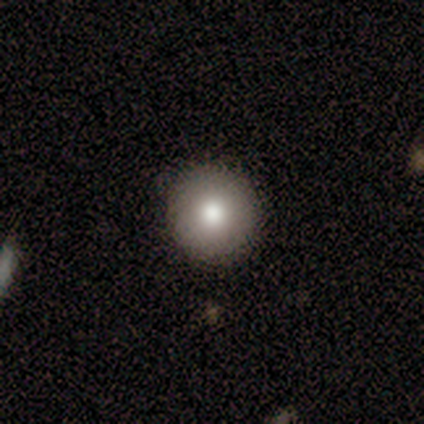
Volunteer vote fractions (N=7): Q: Smooth or featured?
A: smooth (86%); runner-up: star or artifact (14%)
Q: How rounded?
A: round (83%); runner-up: in between (17%)
Q: Merging?
A: none (100%)